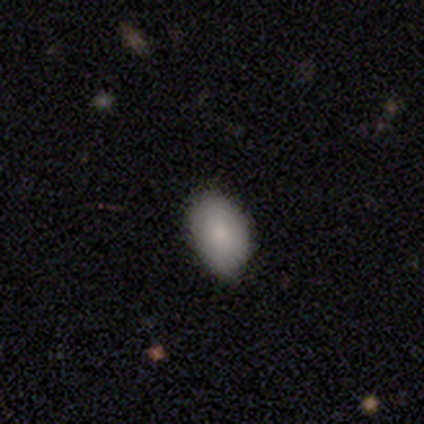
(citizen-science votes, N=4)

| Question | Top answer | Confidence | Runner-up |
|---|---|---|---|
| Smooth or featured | smooth | 100% | — |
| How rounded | in between | 75% | round (25%) |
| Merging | none | 100% | — |